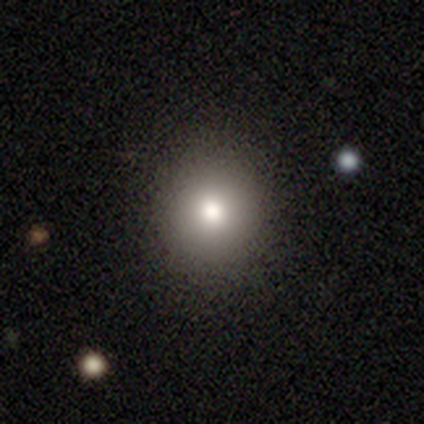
A smooth galaxy with no disk features (100%) that is round (100%).

Vote fractions:
- Smooth or featured? smooth: 100% / featured or disk: 0% / star or artifact: 0%
- How rounded? round: 100% / in between: 0% / cigar-shaped: 0%
- Merging? none: 67% / minor disturbance: 33% / major disturbance: 0% / merger: 0%